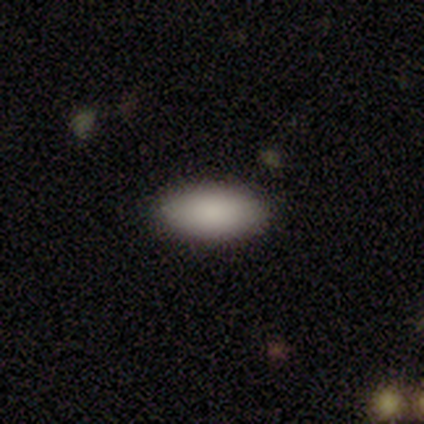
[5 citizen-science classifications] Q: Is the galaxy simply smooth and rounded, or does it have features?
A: smooth — 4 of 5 (80%).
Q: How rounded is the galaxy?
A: in between — 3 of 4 (75%).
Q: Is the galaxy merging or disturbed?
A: none — 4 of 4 (100%).